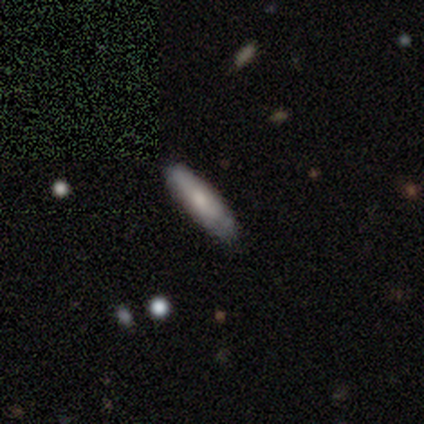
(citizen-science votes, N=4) smooth_or_featured: smooth (p=0.75) [alt: featured or disk p=0.25]
how_rounded: cigar-shaped (p=0.67) [alt: in between p=0.33]
merging: none (p=1.00)